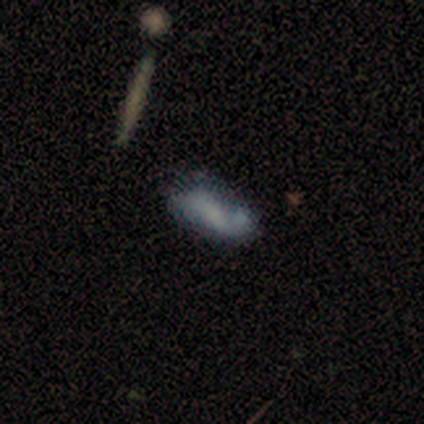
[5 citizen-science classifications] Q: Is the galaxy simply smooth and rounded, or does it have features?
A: smooth — 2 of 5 (40%, tied with featured or disk).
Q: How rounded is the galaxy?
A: in between — 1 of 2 (50%, tied with cigar-shaped).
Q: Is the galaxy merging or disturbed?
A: none — 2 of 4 (50%, tied with merger).